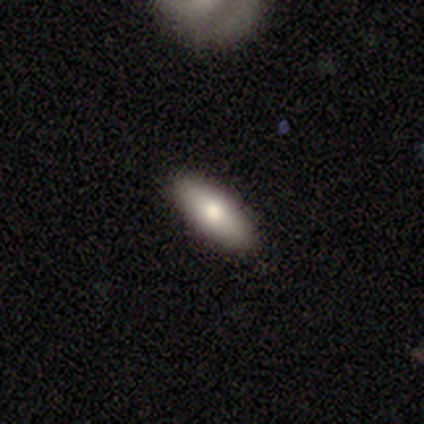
smooth_or_featured: smooth (p=1.00)
how_rounded: cigar-shaped (p=0.60) [alt: in between p=0.40]
merging: none (p=1.00)